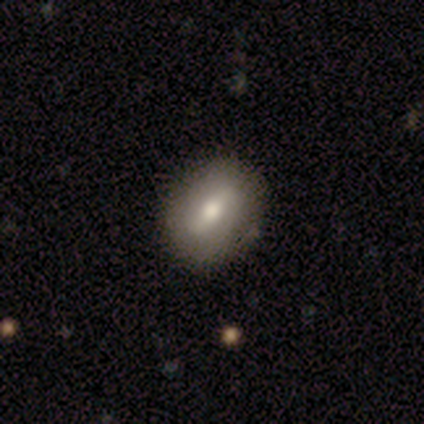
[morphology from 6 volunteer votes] This appears to be a smooth galaxy with no disk features (50%, tied with featured or disk) that is round (67%). Merging: none (83%).